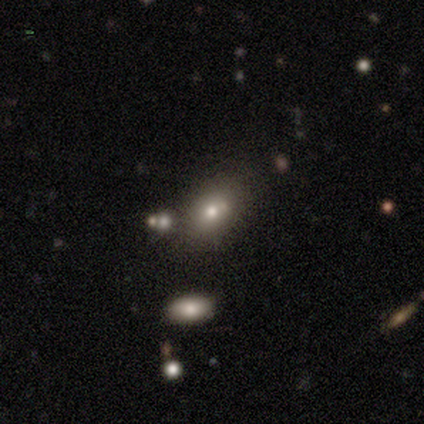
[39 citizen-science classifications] smooth_or_featured: smooth (p=0.82) [alt: star or artifact p=0.15]
how_rounded: in between (p=0.81) [alt: round p=0.16]
merging: none (p=0.76) [alt: minor disturbance p=0.12]